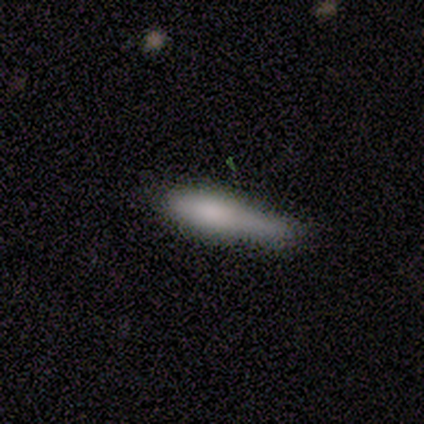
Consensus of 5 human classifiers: Smooth or featured? smooth (80%)
How rounded? cigar-shaped (75%)
Merging? none (80%)